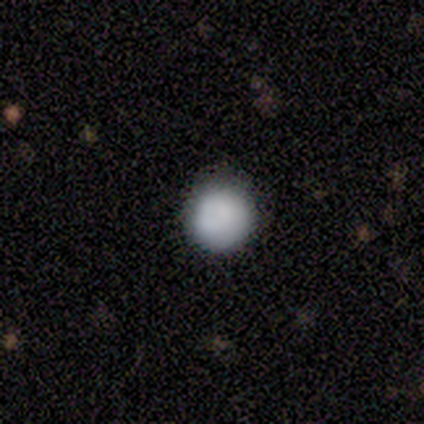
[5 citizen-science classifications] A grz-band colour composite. It shows a smooth galaxy with no disk features (80%) that is round (100%). Merging: none (100%).